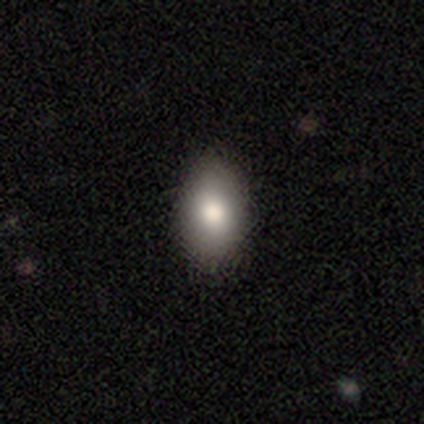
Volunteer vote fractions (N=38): Overall: smooth (74%). How rounded: in between (93%). Merging: none (94%).